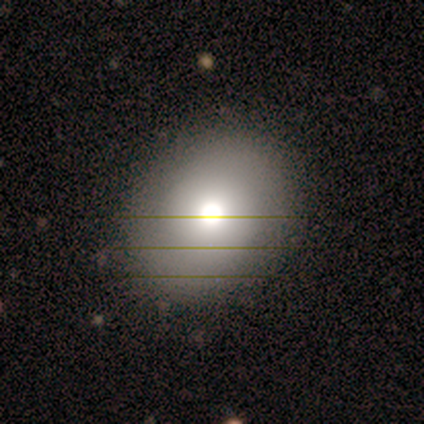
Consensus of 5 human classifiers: This appears to be a smooth galaxy with no disk features (60%) that is round (67%). Merging: none (60%).